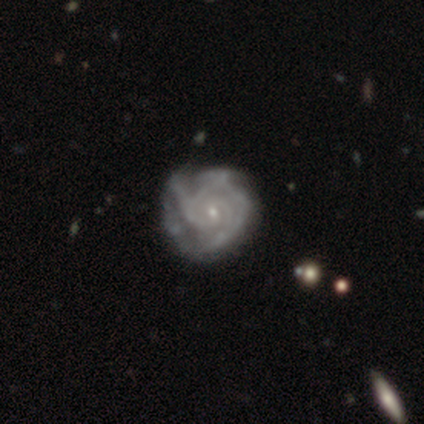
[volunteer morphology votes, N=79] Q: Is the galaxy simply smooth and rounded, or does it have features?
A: featured or disk — 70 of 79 (89%).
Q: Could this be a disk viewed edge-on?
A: no — 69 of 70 (99%).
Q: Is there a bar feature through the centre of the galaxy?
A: no — 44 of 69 (64%).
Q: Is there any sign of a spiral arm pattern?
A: yes — 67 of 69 (97%).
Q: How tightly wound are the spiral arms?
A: tight — 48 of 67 (72%).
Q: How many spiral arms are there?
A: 3 — 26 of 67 (39%).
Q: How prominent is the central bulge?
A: small — 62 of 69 (90%).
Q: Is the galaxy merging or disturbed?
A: none — 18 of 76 (24%).